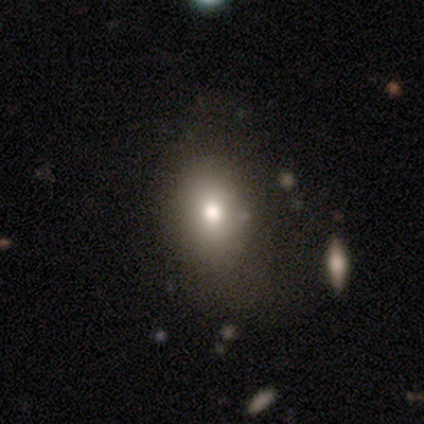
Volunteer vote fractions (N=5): Volunteers were most divided on "smooth or featured": star or artifact: 60%, smooth: 40%, featured or disk: 0%.